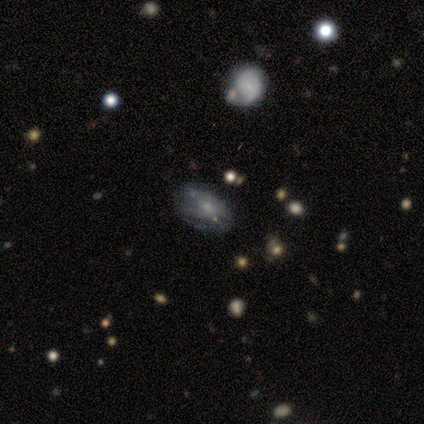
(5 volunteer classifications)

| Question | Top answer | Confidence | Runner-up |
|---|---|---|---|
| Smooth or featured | featured or disk | 60% | smooth (40%) |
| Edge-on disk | no | 100% | — |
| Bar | no | 67% | weak (33%) |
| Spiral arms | yes | 100% | — |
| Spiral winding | tight | 67% | medium (33%) |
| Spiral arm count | can't tell | 67% | 2 (33%) |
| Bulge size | small | 100% | — |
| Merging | none | 80% | minor disturbance (20%) |